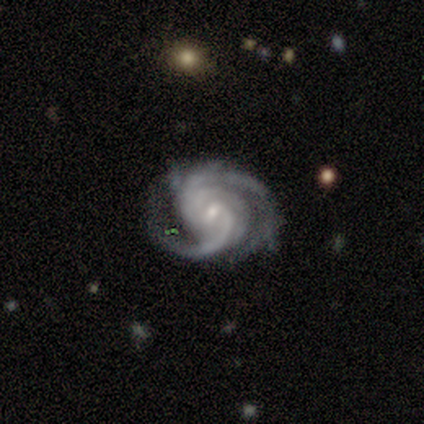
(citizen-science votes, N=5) smooth_or_featured: featured or disk (p=1.00)
disk_edge_on: no (p=1.00)
bar: weak (p=0.80) [alt: strong p=0.20]
has_spiral_arms: yes (p=1.00)
spiral_winding: tight (p=0.80) [alt: medium p=0.20]
spiral_arm_count: 3 (p=0.60) [alt: 2 p=0.20]
bulge_size: small (p=0.80) [alt: none p=0.20]
merging: none (p=0.80) [alt: major disturbance p=0.20]